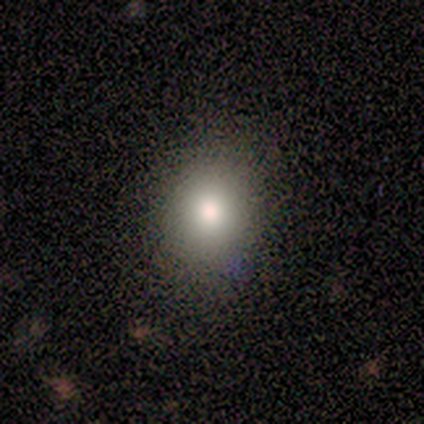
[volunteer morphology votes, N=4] smooth 75%, star or artifact 25%, featured or disk 0%. Down the decision tree: how rounded — round (100%); merging — none (100%).